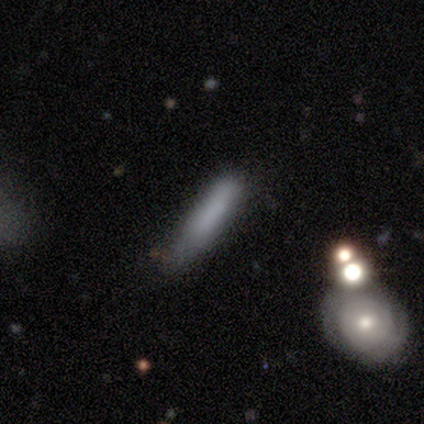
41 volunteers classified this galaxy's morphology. smooth 71%, featured or disk 20%, star or artifact 10%. Down the decision tree: how rounded — cigar-shaped (79%); merging — minor disturbance (43%).